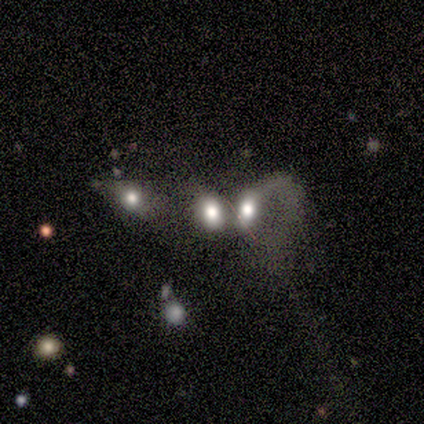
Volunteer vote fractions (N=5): Q: Smooth or featured?
A: star or artifact (60%); runner-up: smooth (20%)